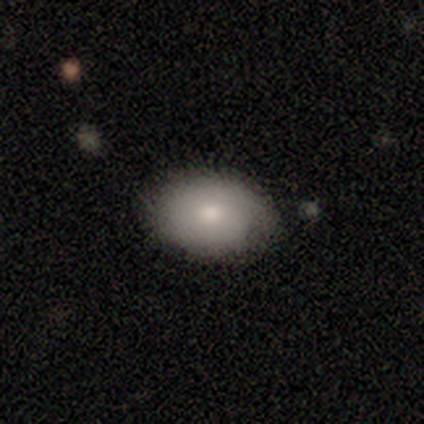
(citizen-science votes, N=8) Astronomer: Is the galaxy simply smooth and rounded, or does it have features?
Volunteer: smooth — 50% (runner-up: featured or disk, 38%).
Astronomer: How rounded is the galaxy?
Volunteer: in between — 75%.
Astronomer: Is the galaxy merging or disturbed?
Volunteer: none — 71%.